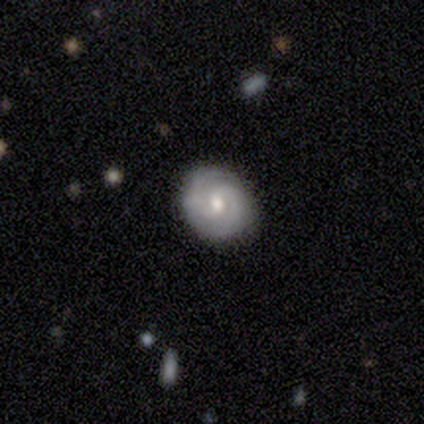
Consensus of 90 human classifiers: Q: Smooth or featured?
A: featured or disk (81%); runner-up: smooth (17%)
Q: Edge-on disk?
A: no (100%)
Q: Bar?
A: no (56%); runner-up: weak (38%)
Q: Spiral arms?
A: yes (92%); runner-up: no (8%)
Q: Spiral winding?
A: tight (70%); runner-up: medium (27%)
Q: Spiral arm count?
A: 2 (85%); runner-up: can't tell (9%)
Q: Bulge size?
A: moderate (75%); runner-up: small (21%)
Q: Merging?
A: none (89%); runner-up: minor disturbance (9%)